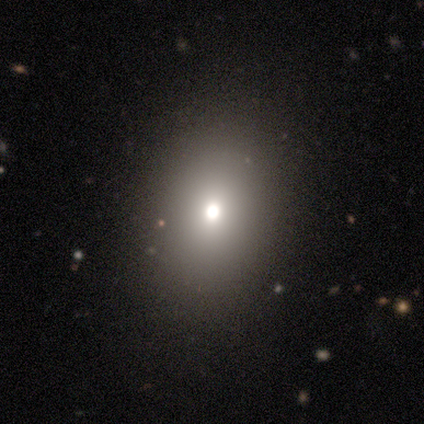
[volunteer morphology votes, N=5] Smooth or featured? 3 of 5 (60%) said star or artifact.